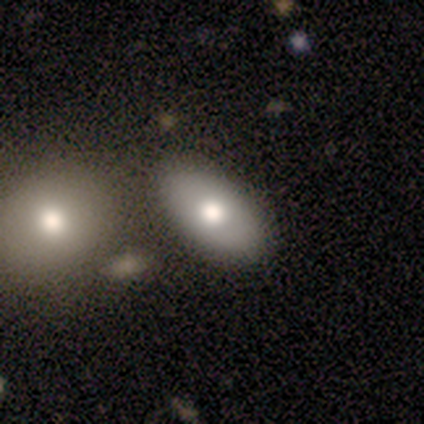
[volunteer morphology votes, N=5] Smooth or featured? 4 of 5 (80%) said smooth. How rounded? 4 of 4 (100%) said in between. Merging? 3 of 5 (60%) said none.